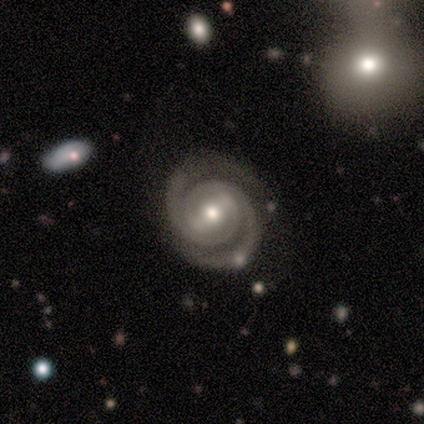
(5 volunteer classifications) Q: Smooth or featured?
A: featured or disk (100%)
Q: Edge-on disk?
A: no (100%)
Q: Bar?
A: strong (60%); runner-up: no (40%)
Q: Spiral arms?
A: yes (100%)
Q: Spiral winding?
A: tight (60%); runner-up: medium (40%)
Q: Spiral arm count?
A: 2 (80%); runner-up: 3 (20%)
Q: Bulge size?
A: moderate (60%); runner-up: small (40%)
Q: Merging?
A: none (100%)